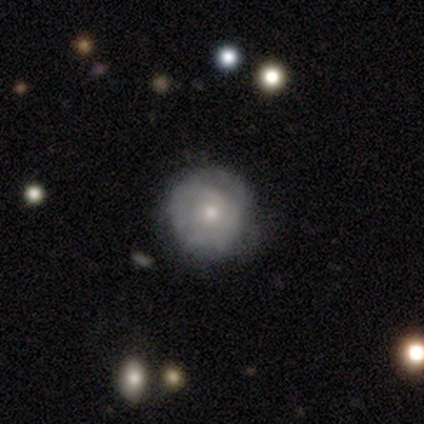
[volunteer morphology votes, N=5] Overall: smooth (60%; featured or disk 40%). How rounded: round (100%). Merging: none (60%; minor disturbance 40%).